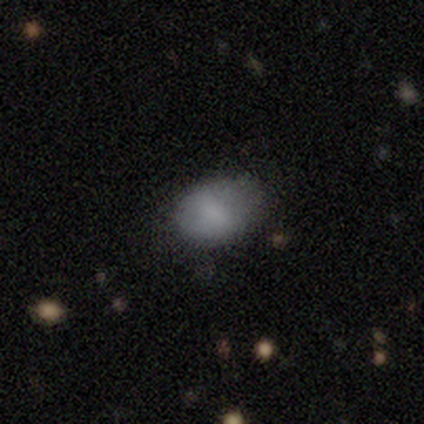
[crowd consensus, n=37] Smooth or featured? 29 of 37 (78%) said smooth. How rounded? 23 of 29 (79%) said in between. Merging? 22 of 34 (65%) said none.